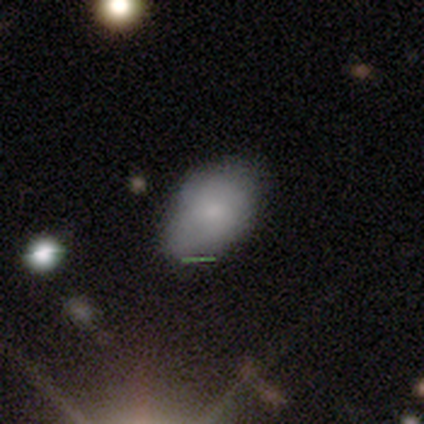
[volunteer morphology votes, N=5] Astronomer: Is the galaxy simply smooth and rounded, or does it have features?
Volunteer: smooth — 80%.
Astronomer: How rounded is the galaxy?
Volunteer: in between — 100%.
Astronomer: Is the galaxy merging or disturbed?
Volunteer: minor disturbance — 60% (runner-up: none, 40%).